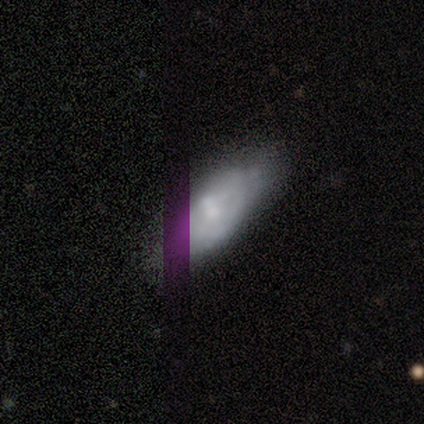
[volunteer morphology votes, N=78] smooth_or_featured: smooth (p=0.53) [alt: featured or disk p=0.32]
how_rounded: in between (p=0.85) [alt: cigar-shaped p=0.12]
merging: none (p=0.39) [alt: merger p=0.12]